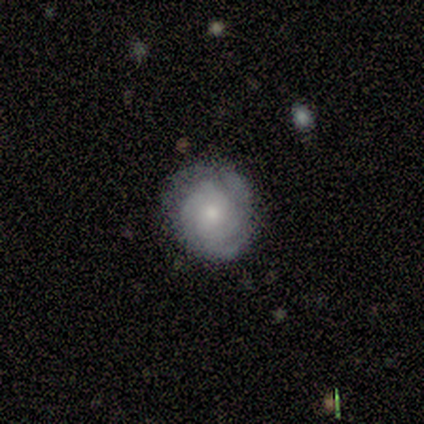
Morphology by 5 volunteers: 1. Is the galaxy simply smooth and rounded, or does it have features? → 60% featured or disk, 20% smooth, 20% star or artifact.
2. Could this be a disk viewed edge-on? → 100% no, 0% yes.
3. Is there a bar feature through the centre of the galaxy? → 67% no, 33% weak, 0% strong.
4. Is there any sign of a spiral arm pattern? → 100% yes, 0% no.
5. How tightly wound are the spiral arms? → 100% tight, 0% medium, 0% loose.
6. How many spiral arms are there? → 67% 2, 33% 3, 0% 1, 0% 4, 0% more than 4, 0% can't tell.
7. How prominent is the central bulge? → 100% moderate, 0% dominant, 0% large, 0% small, 0% none.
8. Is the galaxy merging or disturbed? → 75% none, 25% minor disturbance, 0% major disturbance, 0% merger.